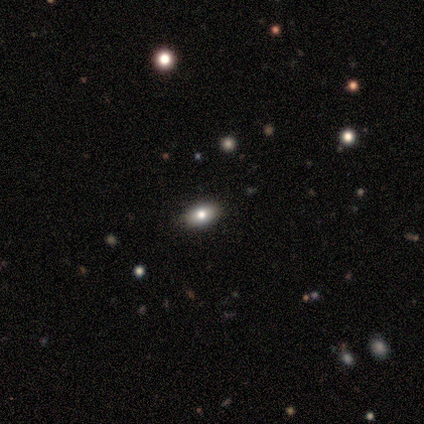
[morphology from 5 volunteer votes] Smooth or featured? 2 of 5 (40%, tied with featured or disk) said smooth. How rounded? 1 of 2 (50%, tied with in between) said round. Merging? 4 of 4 (100%) said none.